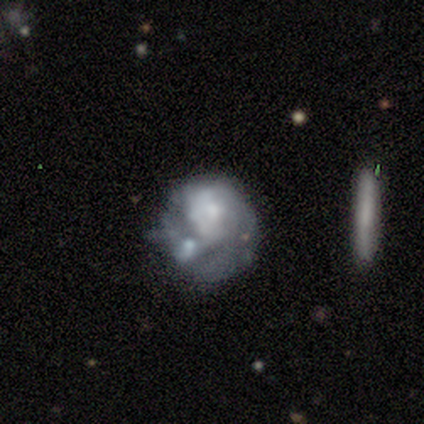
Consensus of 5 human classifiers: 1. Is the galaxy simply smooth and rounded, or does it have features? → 100% featured or disk, 0% smooth, 0% star or artifact.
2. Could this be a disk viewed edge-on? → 100% no, 0% yes.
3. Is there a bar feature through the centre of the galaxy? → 80% no, 20% weak, 0% strong.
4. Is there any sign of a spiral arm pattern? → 60% yes, 40% no.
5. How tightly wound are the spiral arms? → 67% tight, 33% medium, 0% loose.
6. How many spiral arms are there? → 67% 1, 33% 2, 0% 3, 0% 4, 0% more than 4, 0% can't tell.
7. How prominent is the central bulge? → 40% moderate (tied), 40% small (tied), 20% none, 0% dominant, 0% large.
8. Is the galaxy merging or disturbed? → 60% major disturbance, 20% minor disturbance, 20% merger, 0% none.